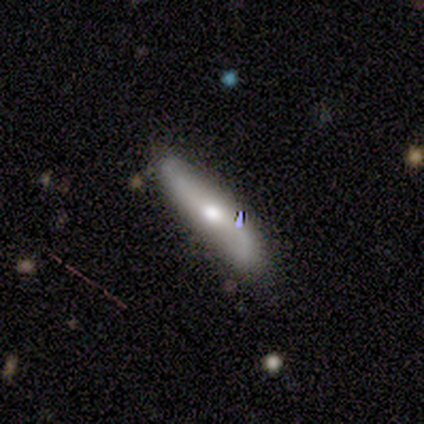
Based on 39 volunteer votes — smooth_or_featured: featured or disk (p=0.74) [alt: smooth p=0.21]
disk_edge_on: yes (p=0.55) [alt: no p=0.45]
edge_on_bulge: rounded (p=0.94) [alt: none p=0.06]
merging: none (p=0.84) [alt: minor disturbance p=0.08]